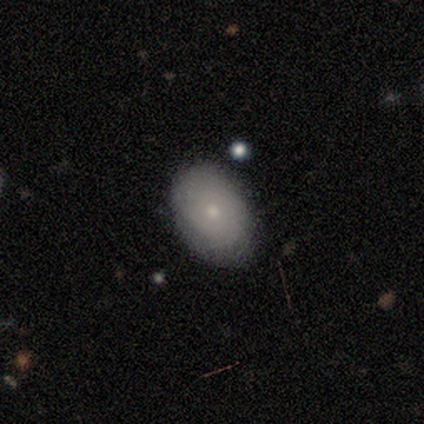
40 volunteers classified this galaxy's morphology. Volunteers were most divided on "smooth or featured": smooth: 57%, featured or disk: 35%, star or artifact: 8%. More confident: merging — none (78%); how rounded — in between (78%).